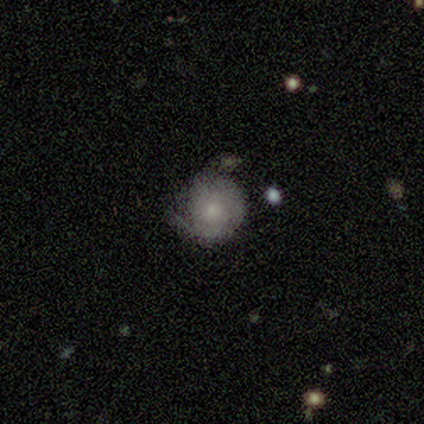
smooth_or_featured: smooth (p=0.50) [tied with: featured or disk p=0.50]
how_rounded: round (p=0.75) [alt: in between p=0.25]
merging: none (p=0.38) [tied with: minor disturbance p=0.38]